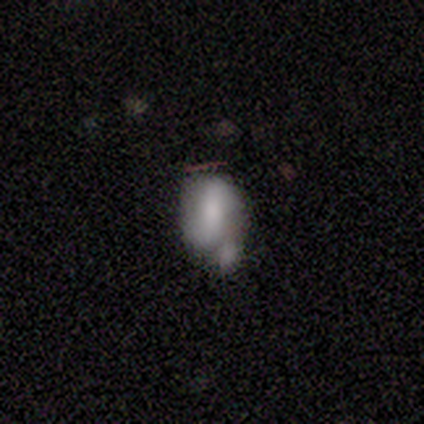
Q: Smooth or featured?
A: smooth (43%); tied with: featured or disk (43%)
Q: How rounded?
A: in between (100%)
Q: Merging?
A: merger (50%); runner-up: none (33%)